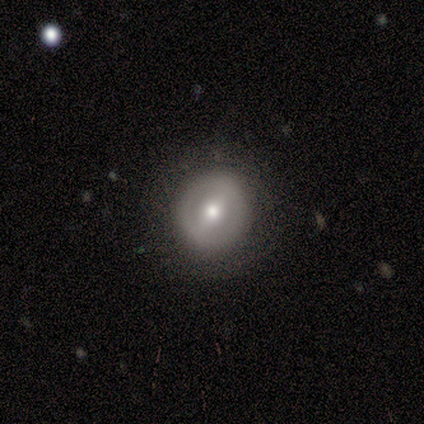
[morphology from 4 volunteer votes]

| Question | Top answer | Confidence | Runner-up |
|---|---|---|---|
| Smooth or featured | featured or disk | 50% | smooth (25%) |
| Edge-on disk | no | 100% | — |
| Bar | strong | 50% | tied: weak (50%) |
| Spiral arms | yes | 50% | tied: no (50%) |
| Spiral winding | tight | 100% | — |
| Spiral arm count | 2 | 100% | — |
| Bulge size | moderate | 50% | tied: small (50%) |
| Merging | none | 67% | minor disturbance (33%) |